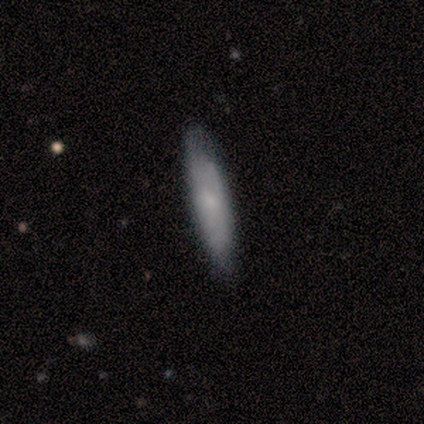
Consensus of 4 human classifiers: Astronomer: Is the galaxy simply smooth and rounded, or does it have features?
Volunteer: smooth — 75%.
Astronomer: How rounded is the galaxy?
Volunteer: cigar-shaped — 67%.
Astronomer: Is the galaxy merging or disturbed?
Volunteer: none — 100%.